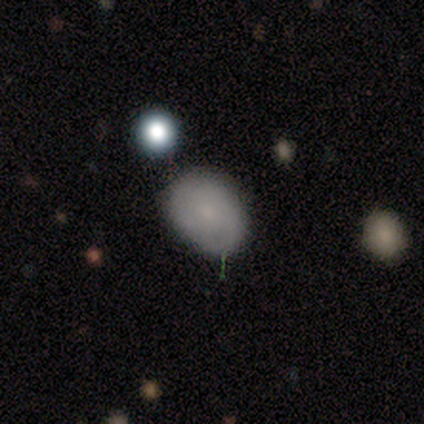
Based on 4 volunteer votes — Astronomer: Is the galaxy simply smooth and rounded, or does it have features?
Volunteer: featured or disk — 75%.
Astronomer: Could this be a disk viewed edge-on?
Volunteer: no — 100%.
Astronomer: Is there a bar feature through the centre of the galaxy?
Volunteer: no — 100%.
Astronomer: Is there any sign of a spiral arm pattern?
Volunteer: yes — 67%.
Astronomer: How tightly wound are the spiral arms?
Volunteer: medium — 100%.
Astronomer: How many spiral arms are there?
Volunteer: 2 — 50%, tied with can't tell at 50%.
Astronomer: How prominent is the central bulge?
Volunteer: small — 67%.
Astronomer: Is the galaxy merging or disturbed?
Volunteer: none — 100%.